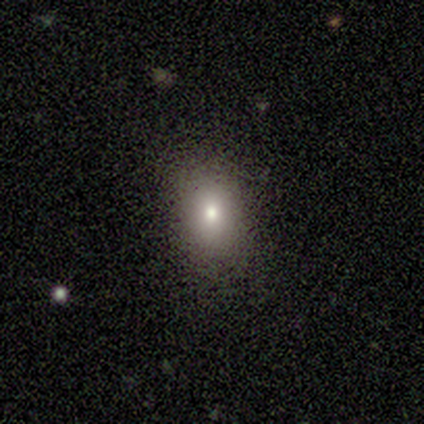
This is likely a smooth galaxy (60%). How rounded: clearly in between (100%). Merging: likely none (75%).